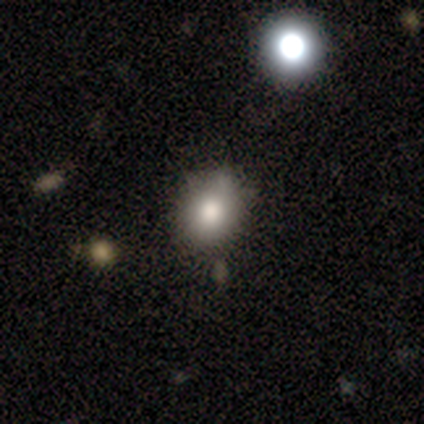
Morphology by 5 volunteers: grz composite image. It shows a smooth galaxy with no disk features (80%) that is round (75%). Merging: none (60%).